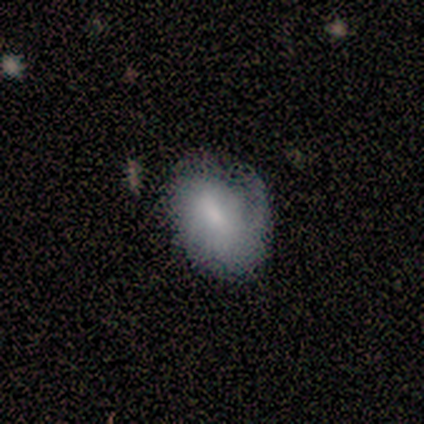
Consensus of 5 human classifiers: A smooth galaxy with no disk features (60%) that is in between round and cigar-shaped (100%). Merging: minor disturbance (60%).